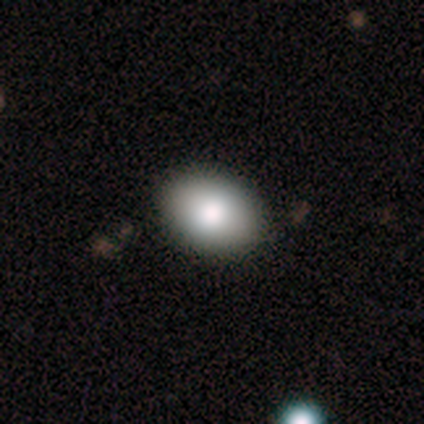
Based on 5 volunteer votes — smooth_or_featured: smooth (p=1.00)
how_rounded: in between (p=1.00)
merging: none (p=0.80) [alt: major disturbance p=0.20]